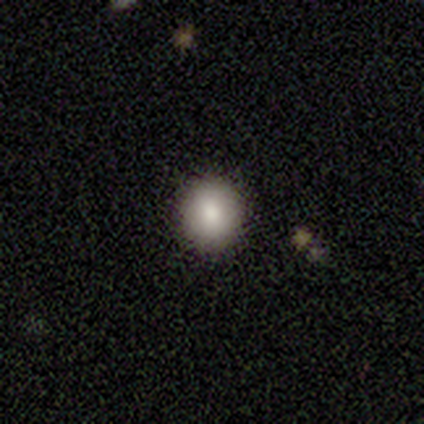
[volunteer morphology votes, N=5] Smooth or featured: smooth — 80% (star or artifact — 20%)
How rounded: round — 100%
Merging: none — 100%